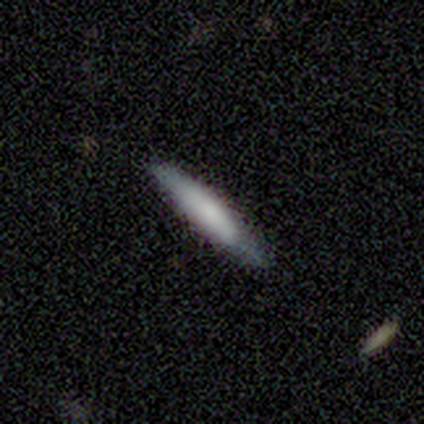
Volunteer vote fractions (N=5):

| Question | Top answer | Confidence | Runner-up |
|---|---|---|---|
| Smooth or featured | smooth | 80% | featured or disk (20%) |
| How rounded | cigar-shaped | 100% | — |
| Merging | none | 100% | — |